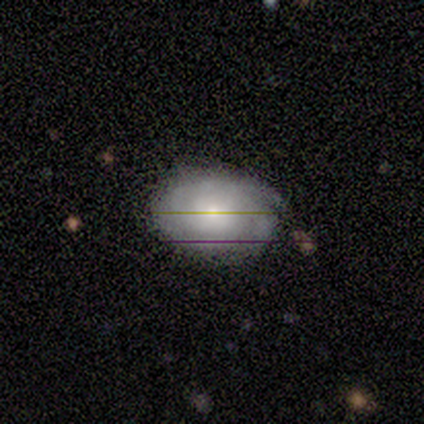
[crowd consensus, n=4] Morphology: type=featured or disk (50%); edge-on=no (100%); bar=weak (50%, tied with no); spiral arms=yes (100%); winding=tight (100%); arm count=can't tell (100%); bulge=moderate (50%, tied with small); merging=minor disturbance (67%).